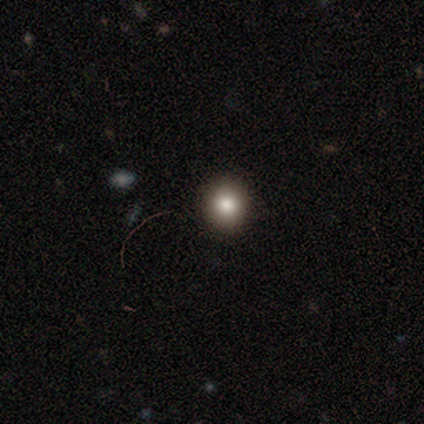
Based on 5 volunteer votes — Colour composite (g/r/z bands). It shows a smooth galaxy with no disk features (80%) that is round (75%). Merging: none (100%).